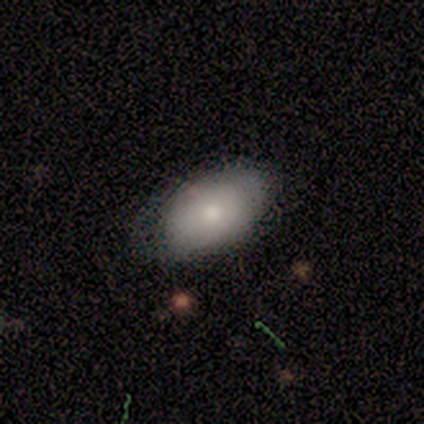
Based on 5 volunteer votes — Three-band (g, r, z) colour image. It shows a smooth galaxy with no disk features (100%) that is in between round and cigar-shaped (80%). Merging: minor disturbance (60%).